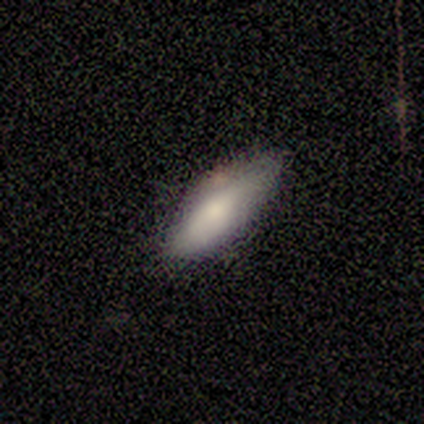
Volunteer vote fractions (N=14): This is likely a smooth galaxy (79%). How rounded: likely in between (64%). Merging: likely none (64%).